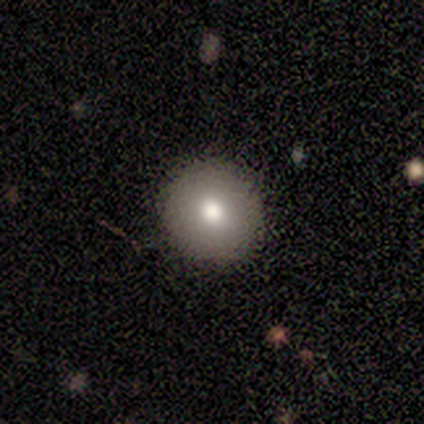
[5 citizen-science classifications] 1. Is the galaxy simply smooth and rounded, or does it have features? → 80% smooth, 20% featured or disk, 0% star or artifact.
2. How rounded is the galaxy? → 100% round, 0% in between, 0% cigar-shaped.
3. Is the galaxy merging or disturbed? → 100% none, 0% minor disturbance, 0% major disturbance, 0% merger.